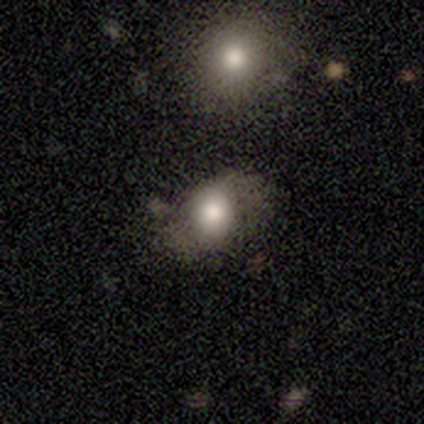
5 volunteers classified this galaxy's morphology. type=featured or disk (60%); edge-on=no (100%); bar=no (100%); spiral arms=yes (67%); winding=tight (50%, tied with loose); arm count=2 (100%); bulge=moderate (67%); merging=none (80%).